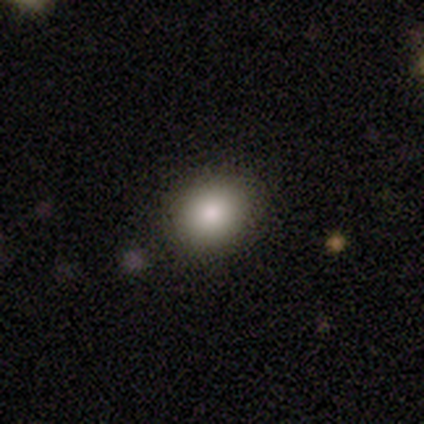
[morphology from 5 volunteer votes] Smooth or featured? 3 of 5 (60%) said smooth. How rounded? 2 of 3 (67%) said in between. Merging? 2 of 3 (67%) said none.